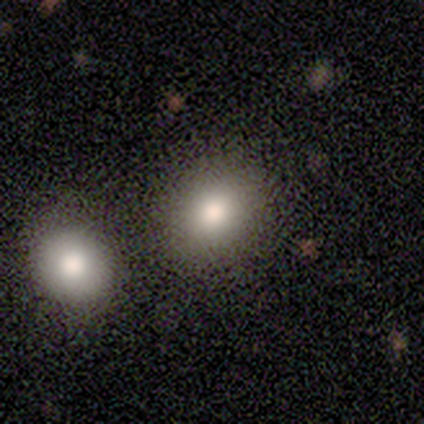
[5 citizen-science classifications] Smooth or featured?
  - smooth: 80% *
  - featured or disk: 20%
  - star or artifact: 0%
How rounded?
  - round: 50% * (tied)
  - in between: 50% * (tied)
  - cigar-shaped: 0%
Merging?
  - none: 100% *
  - minor disturbance: 0%
  - major disturbance: 0%
  - merger: 0%